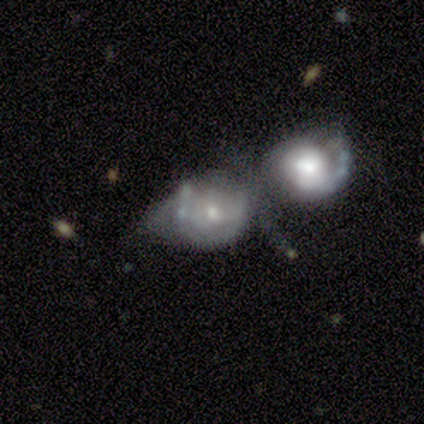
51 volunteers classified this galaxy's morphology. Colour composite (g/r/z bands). It shows a featured or disk galaxy (67%) with no bar (91%), no spiral arms (59%) and a moderate central bulge (44%, tied with small). Merging: merger (70%).